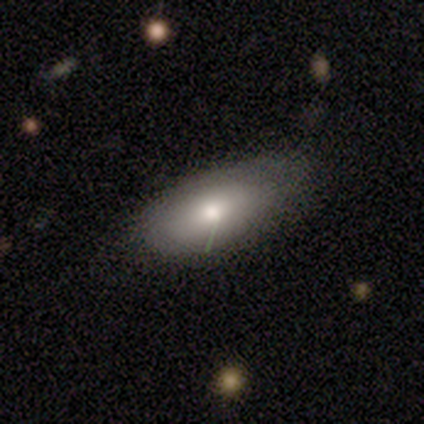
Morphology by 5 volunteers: Q: Smooth or featured?
A: smooth (100%)
Q: How rounded?
A: in between (80%); runner-up: round (20%)
Q: Merging?
A: none (80%); runner-up: minor disturbance (20%)